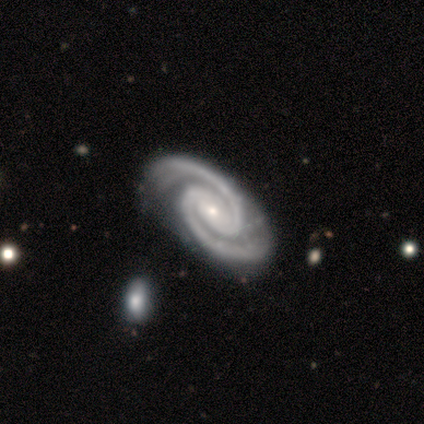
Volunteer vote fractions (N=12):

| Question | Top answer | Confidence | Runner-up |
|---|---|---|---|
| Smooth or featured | featured or disk | 100% | — |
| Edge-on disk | no | 100% | — |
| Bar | no | 42% | strong (33%) |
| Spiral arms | yes | 100% | — |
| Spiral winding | tight | 50% | medium (42%) |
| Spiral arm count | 2 | 100% | — |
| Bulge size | small | 92% | moderate (8%) |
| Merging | none | 83% | minor disturbance (17%) |